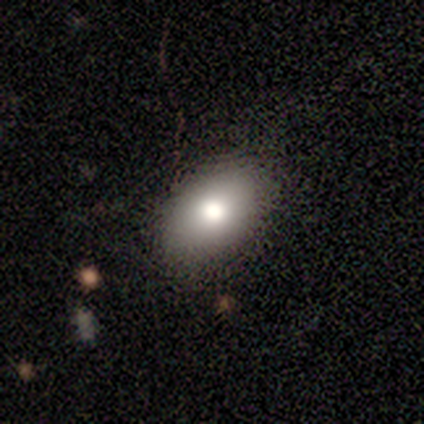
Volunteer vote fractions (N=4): Smooth or featured? smooth (100%)
How rounded? in between (100%)
Merging? none (75%)